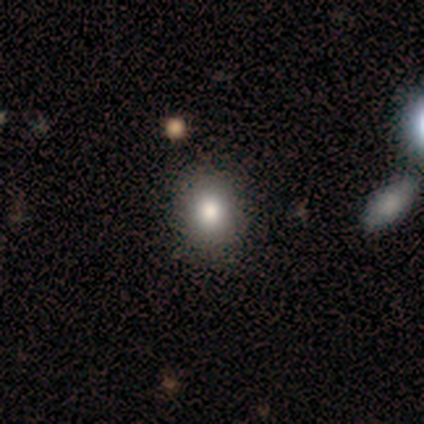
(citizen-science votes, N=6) Volunteers were most divided on "how rounded": round: 60%, in between: 40%, cigar-shaped: 0%. More confident: smooth or featured — smooth (83%); merging — none (80%).